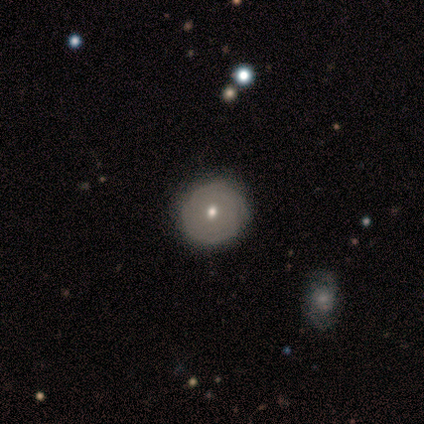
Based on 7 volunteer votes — Volunteers were most divided on "smooth or featured": smooth: 71%, featured or disk: 29%, star or artifact: 0%. More confident: how rounded — round (100%); merging — none (100%).